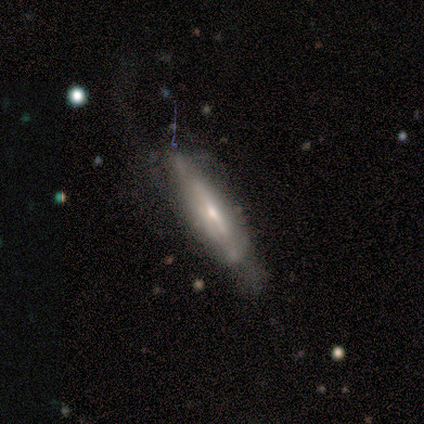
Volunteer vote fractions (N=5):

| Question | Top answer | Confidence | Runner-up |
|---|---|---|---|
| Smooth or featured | smooth | 60% | featured or disk (40%) |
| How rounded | cigar-shaped | 100% | — |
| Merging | none | 40% | tied: minor disturbance (40%) |